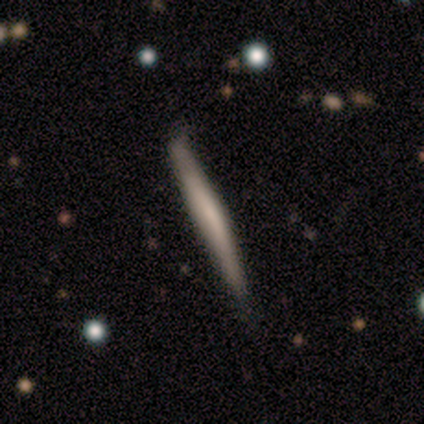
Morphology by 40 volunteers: Volunteers were most divided on "smooth or featured": featured or disk: 55%, smooth: 45%, star or artifact: 0%. Remaining: edge-on disk — yes (100%); edge-on bulge — none (55%); merging — none (45%).